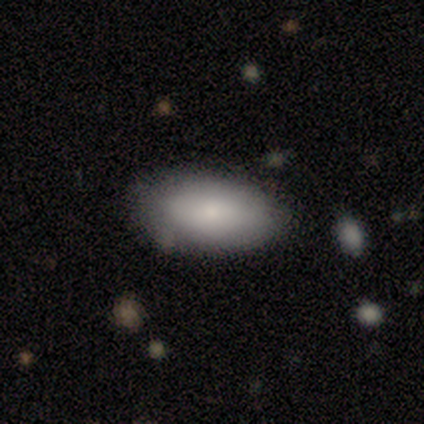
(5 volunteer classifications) Overall: smooth (80%). How rounded: in between (100%). Merging: none (80%).